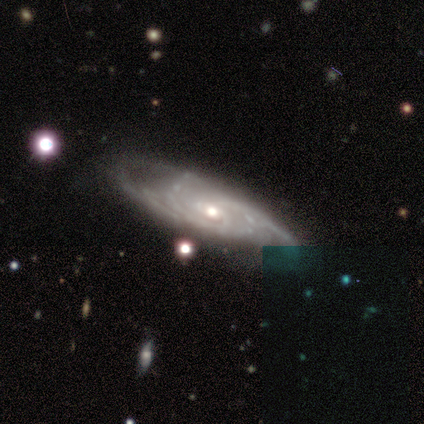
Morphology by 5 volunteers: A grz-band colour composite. It shows a featured or disk galaxy (80%) with no bar (75%), 3 (50%, tied with can't tell) tight (75%) spiral arms (100%) and a moderate central bulge (100%). Merging: none (60%).